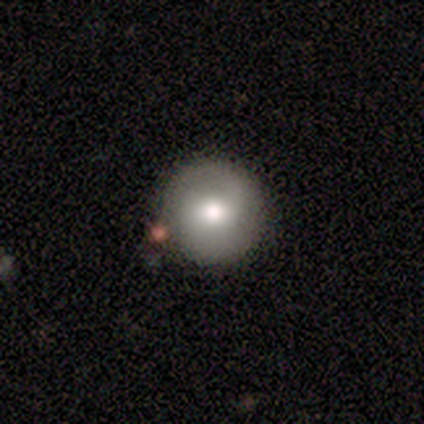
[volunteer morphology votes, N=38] Overall: smooth (63%; featured or disk 26%). How rounded: round (96%). Merging: none (85%).